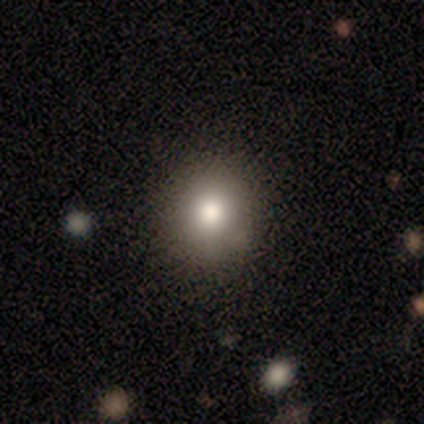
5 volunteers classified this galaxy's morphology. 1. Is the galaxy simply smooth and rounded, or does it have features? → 60% smooth, 20% featured or disk, 20% star or artifact.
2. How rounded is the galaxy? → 100% round, 0% in between, 0% cigar-shaped.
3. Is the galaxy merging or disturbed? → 100% none, 0% minor disturbance, 0% major disturbance, 0% merger.